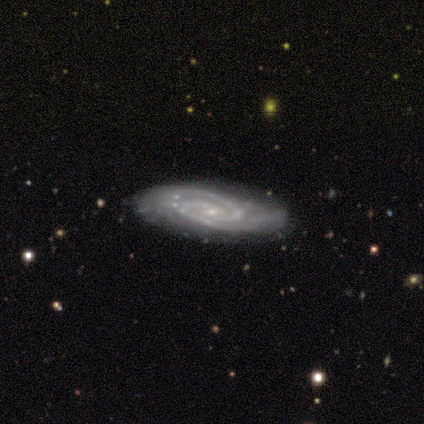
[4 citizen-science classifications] Q: Smooth or featured?
A: featured or disk (100%)
Q: Edge-on disk?
A: no (100%)
Q: Bar?
A: no (75%); runner-up: weak (25%)
Q: Spiral arms?
A: yes (100%)
Q: Spiral winding?
A: tight (50%); tied with: medium (50%)
Q: Spiral arm count?
A: 2 (50%); runner-up: 3 (25%)
Q: Bulge size?
A: small (100%)
Q: Merging?
A: none (50%); tied with: minor disturbance (50%)